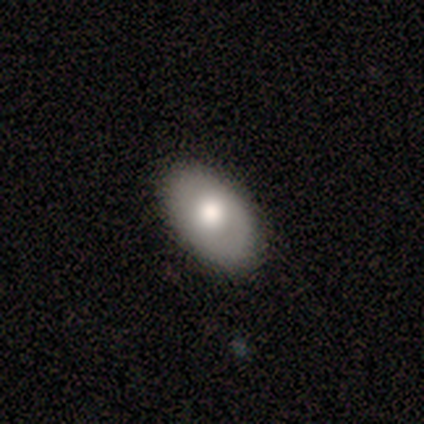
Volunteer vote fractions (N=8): This appears to be a smooth galaxy with no disk features (62%) that is in between round and cigar-shaped (100%). Merging: none (100%).